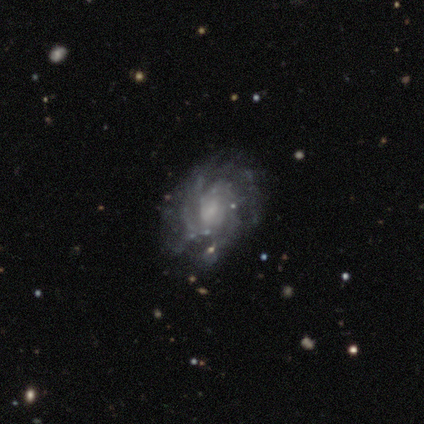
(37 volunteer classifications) smooth-or-featured: featured or disk: 89% | smooth: 5% | star or artifact: 5%
  disk-edge-on: no: 97% | yes: 3%
    bar: no: 69% | weak: 25% | strong: 6%
    has-spiral-arms: yes: 97% | no: 3%
      spiral-winding: tight: 61% | medium: 39% | loose: 0%
      spiral-arm-count: can't tell: 39% | 4: 19% | more than 4: 16% | 2: 13% | 3: 10% | 1: 3%
    bulge-size: moderate: 34% (tied) | none: 34% (tied) | small: 31% | dominant: 0% | large: 0%
  merging: none: 74% | minor disturbance: 14% | major disturbance: 6% | merger: 6%